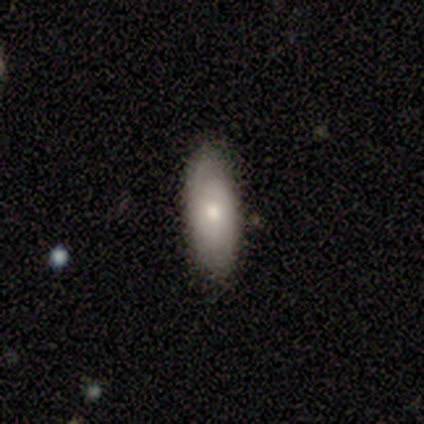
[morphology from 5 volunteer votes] Smooth or featured?
  - smooth: 100% *
  - featured or disk: 0%
  - star or artifact: 0%
How rounded?
  - in between: 80% *
  - cigar-shaped: 20%
  - round: 0%
Merging?
  - none: 100% *
  - minor disturbance: 0%
  - major disturbance: 0%
  - merger: 0%